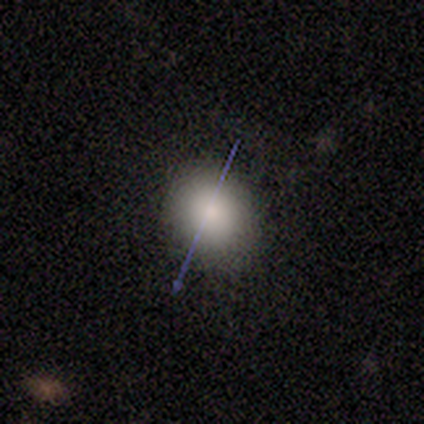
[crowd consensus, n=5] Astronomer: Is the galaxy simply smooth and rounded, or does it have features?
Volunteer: smooth — 80%.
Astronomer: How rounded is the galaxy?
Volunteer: round — 75%.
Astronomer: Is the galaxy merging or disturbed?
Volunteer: minor disturbance — 50%.